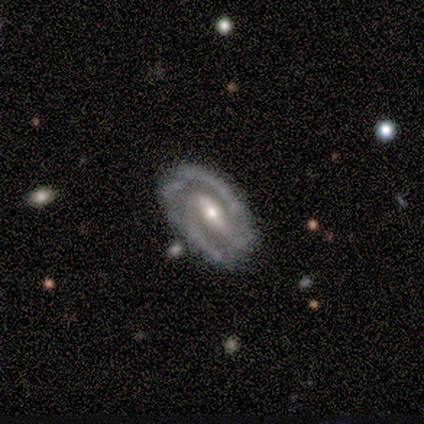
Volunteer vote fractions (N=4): Smooth or featured?
  - featured or disk: 100% *
  - smooth: 0%
  - star or artifact: 0%
Edge-on disk?
  - no: 100% *
  - yes: 0%
Bar?
  - strong: 75% *
  - weak: 25%
  - no: 0%
Spiral arms?
  - yes: 100% *
  - no: 0%
Spiral winding?
  - tight: 100% *
  - medium: 0%
  - loose: 0%
Spiral arm count?
  - 2: 100% *
  - 1: 0%
  - 3: 0%
  - 4: 0%
  - more than 4: 0%
  - can't tell: 0%
Bulge size?
  - moderate: 50% * (tied)
  - small: 50% * (tied)
  - dominant: 0%
  - large: 0%
  - none: 0%
Merging?
  - none: 75% *
  - minor disturbance: 25%
  - major disturbance: 0%
  - merger: 0%